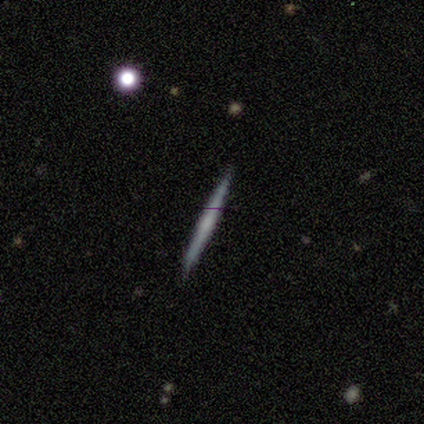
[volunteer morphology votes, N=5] This is likely a featured or disk galaxy (60%). It is clearly viewed edge-on (100%). Edge-on bulge: clearly none (100%). Merging: clearly none (80%).